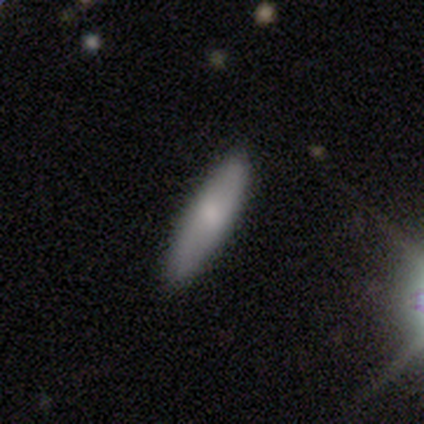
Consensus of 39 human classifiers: smooth 77%, featured or disk 21%, star or artifact 3%. Down the decision tree: how rounded — cigar-shaped (77%); merging — none (92%).